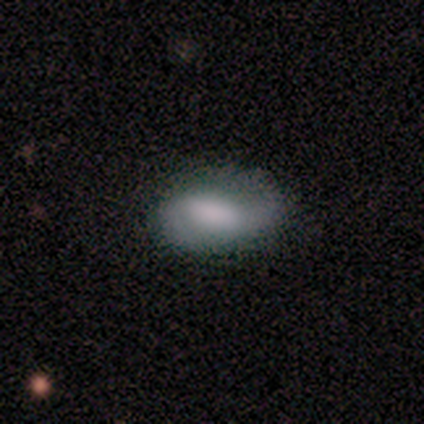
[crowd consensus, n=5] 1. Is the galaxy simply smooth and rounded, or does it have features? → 60% smooth, 40% featured or disk, 0% star or artifact.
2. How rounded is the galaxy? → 100% in between, 0% round, 0% cigar-shaped.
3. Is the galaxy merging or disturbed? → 80% none, 20% minor disturbance, 0% major disturbance, 0% merger.